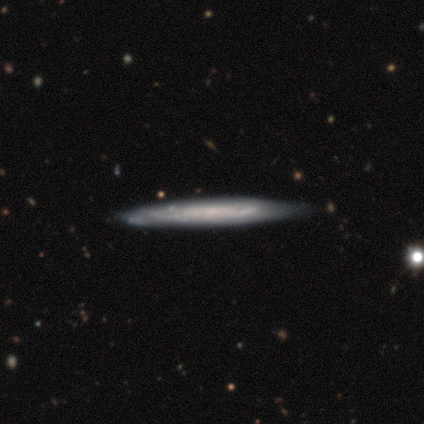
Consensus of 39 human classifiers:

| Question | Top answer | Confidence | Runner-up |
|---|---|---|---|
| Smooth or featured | featured or disk | 85% | smooth (15%) |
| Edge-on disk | yes | 85% | no (15%) |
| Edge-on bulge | none | 71% | rounded (25%) |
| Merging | none | 67% | minor disturbance (15%) |